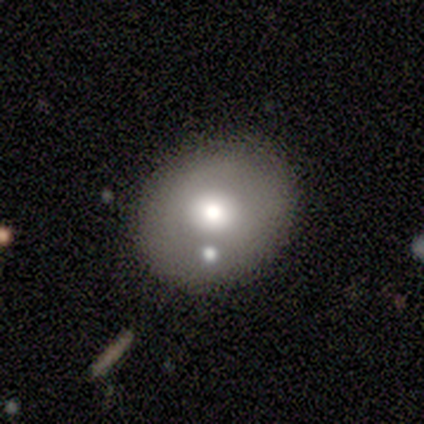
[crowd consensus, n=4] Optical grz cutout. It shows a star or artifact, not a galaxy (50%).